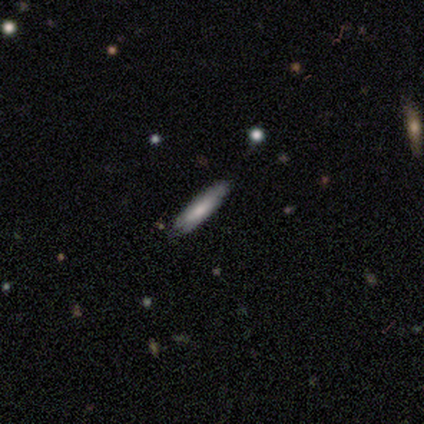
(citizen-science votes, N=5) smooth 80%, featured or disk 20%, star or artifact 0%. Down the decision tree: how rounded — cigar-shaped (100%); merging — none (100%).